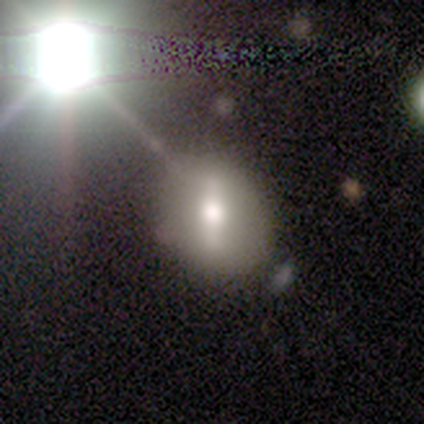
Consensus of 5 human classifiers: Smooth or featured?
  - star or artifact: 60% *
  - smooth: 40%
  - featured or disk: 0%